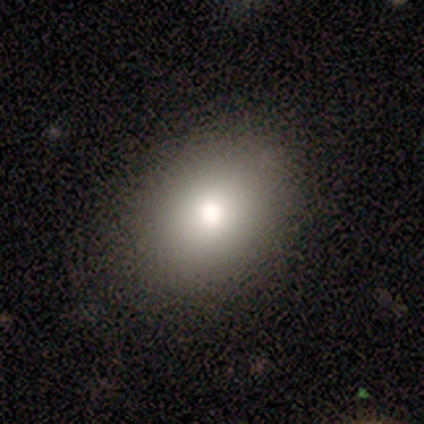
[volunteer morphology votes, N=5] A smooth galaxy with no disk features (80%) that is in between round and cigar-shaped (75%).

Vote fractions:
- Smooth or featured? smooth: 80% / featured or disk: 20% / star or artifact: 0%
- How rounded? in between: 75% / round: 25% / cigar-shaped: 0%
- Merging? none: 80% / minor disturbance: 20% / major disturbance: 0% / merger: 0%